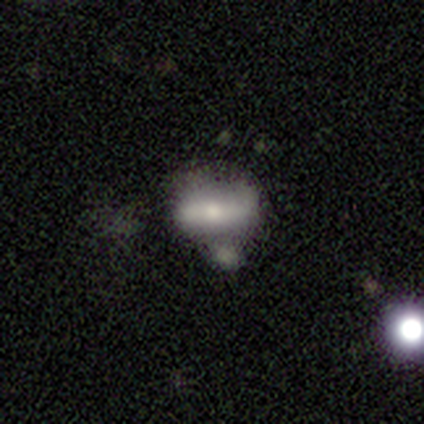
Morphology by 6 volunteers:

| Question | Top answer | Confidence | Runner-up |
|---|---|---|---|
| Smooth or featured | smooth | 83% | featured or disk (17%) |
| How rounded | in between | 60% | cigar-shaped (40%) |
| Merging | none | 50% | tied: merger (50%) |